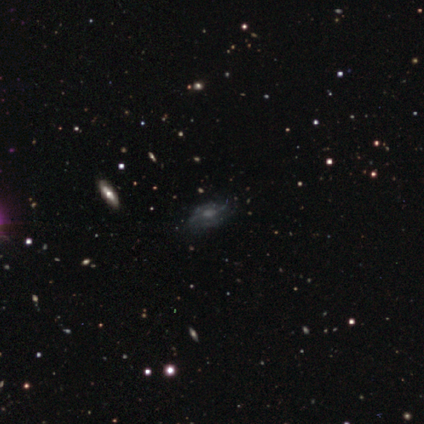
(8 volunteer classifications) featured or disk 50%, star or artifact 38%, smooth 12%. Down the decision tree: edge-on disk — no (75%); bar — weak (67%); spiral arms — yes (100%); spiral arm count — can't tell (67%); spiral winding — tight (33%, tied with medium and loose); bulge size — moderate (33%, tied with small and none); merging — none (80%).